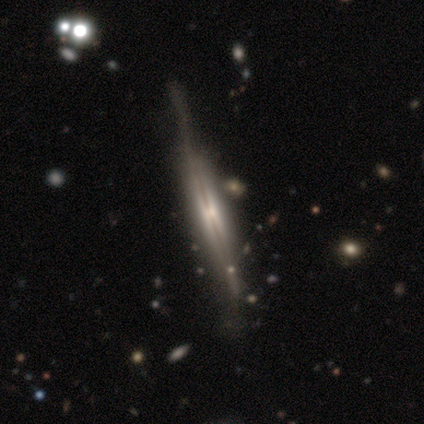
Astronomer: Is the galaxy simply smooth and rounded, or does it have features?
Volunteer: featured or disk — 88%.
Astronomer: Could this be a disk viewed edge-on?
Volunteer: yes — 94%.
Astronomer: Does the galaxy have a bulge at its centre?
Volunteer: rounded — 61%.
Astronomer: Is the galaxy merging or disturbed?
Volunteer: none — 63%.